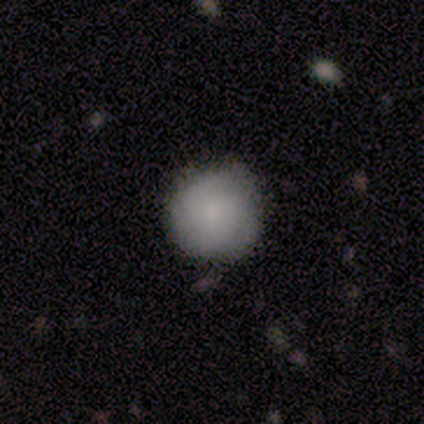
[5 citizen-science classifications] smooth-or-featured: smooth: 100% | featured or disk: 0% | star or artifact: 0%
  how-rounded: round: 80% | cigar-shaped: 20% | in between: 0%
  merging: none: 60% | minor disturbance: 20% | major disturbance: 20% | merger: 0%